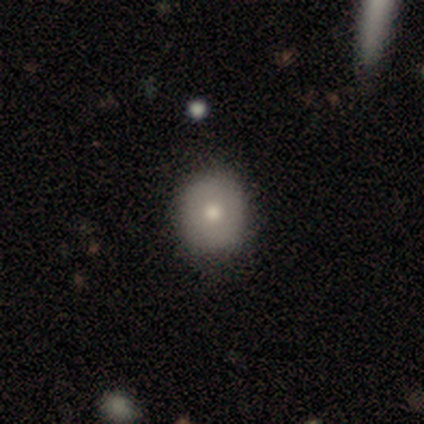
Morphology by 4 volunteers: Smooth or featured?
  - smooth: 75% *
  - star or artifact: 25%
  - featured or disk: 0%
How rounded?
  - round: 67% *
  - in between: 33%
  - cigar-shaped: 0%
Merging?
  - none: 100% *
  - minor disturbance: 0%
  - major disturbance: 0%
  - merger: 0%